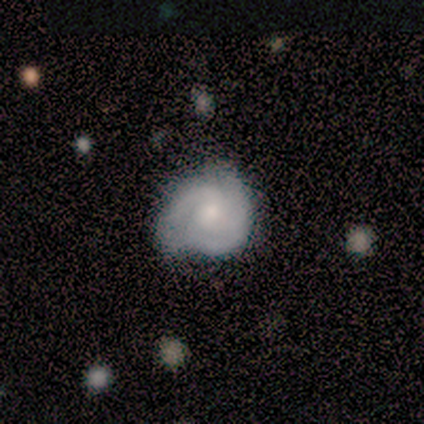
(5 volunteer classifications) This is likely a featured or disk galaxy (60%). It is clearly not viewed edge-on (100%). Bar: clearly no (100%). Spiral arm pattern: clearly yes (100%). Spiral arm count: likely 3 (67%). Spiral winding: likely medium (67%). Central bulge: likely small (67%). Merging: likely none (60%).